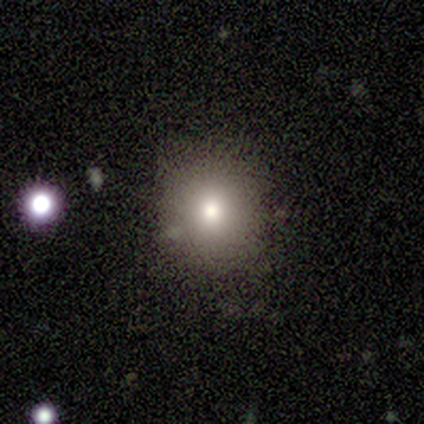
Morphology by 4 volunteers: smooth-or-featured: smooth: 75% | featured or disk: 25% | star or artifact: 0%
  how-rounded: round: 100% | in between: 0% | cigar-shaped: 0%
  merging: none: 50% (tied) | minor disturbance: 50% (tied) | major disturbance: 0% | merger: 0%